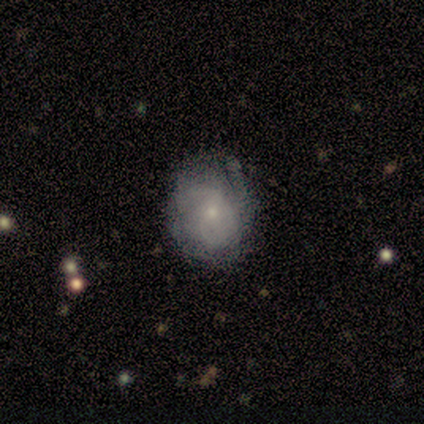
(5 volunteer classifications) Overall: featured or disk (60%; star or artifact 40%). Edge-on disk: no (100%). Bar: no (67%; weak 33%). Spiral arms: yes (100%). Spiral arm count: 2 (67%; 3 33%). Spiral winding: tight (33%, tied with medium and loose). Bulge size: small (67%; moderate 33%). Merging: none (67%; major disturbance 33%).